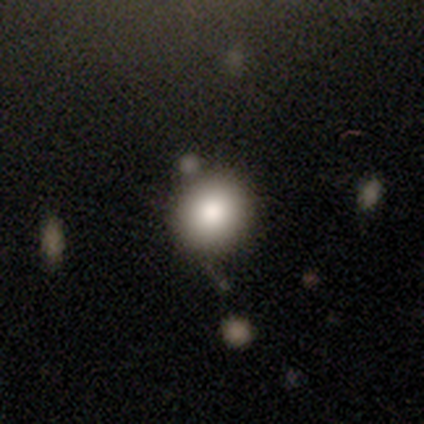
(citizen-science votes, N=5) This appears to be a smooth galaxy with no disk features (40%, tied with star or artifact) that is round (100%). Merging: none (100%).